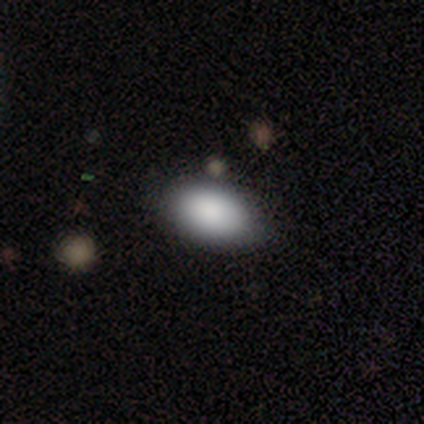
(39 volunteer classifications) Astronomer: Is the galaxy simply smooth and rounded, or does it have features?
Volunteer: smooth — 85%.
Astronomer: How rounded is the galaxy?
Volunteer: in between — 91%.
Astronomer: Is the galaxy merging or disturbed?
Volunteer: none — 69%.